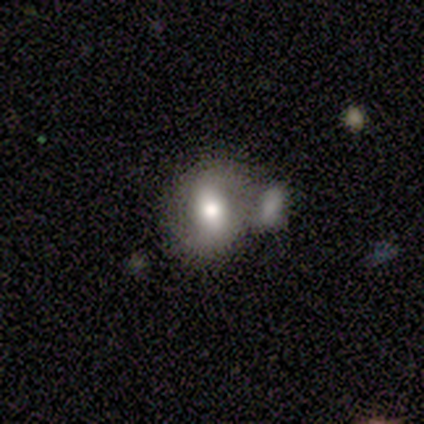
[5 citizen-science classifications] Volunteers were most divided on "bar" (3-way tie): strong: 33%, weak: 33%, no: 33%; "spiral winding" (2-way tie): tight: 50%, medium: 50%, loose: 0%. More confident: edge-on disk — no (100%); spiral arm count — 2 (100%); spiral arms — yes (67%); bulge size — moderate (67%); smooth or featured — featured or disk (60%); merging — merger (60%).